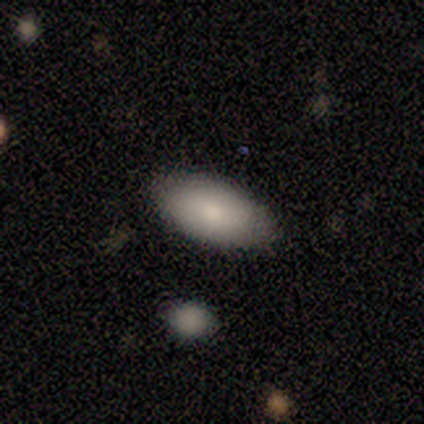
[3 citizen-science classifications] Smooth or featured: smooth — 100%
How rounded: in between — 67% (cigar-shaped — 33%)
Merging: none — 100%